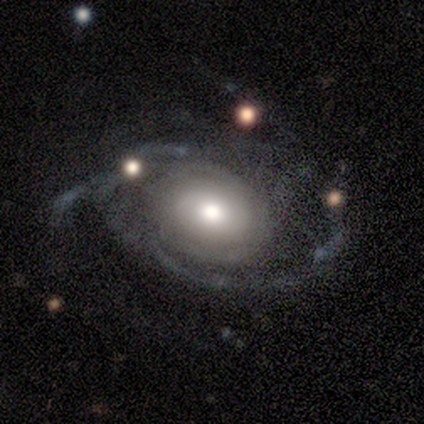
Smooth or featured? 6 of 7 (86%) said featured or disk. Edge-on disk? 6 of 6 (100%) said no. Bar? 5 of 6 (83%) said no. Spiral arms? 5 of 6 (83%) said yes. Spiral winding? 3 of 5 (60%) said tight. Spiral arm count? 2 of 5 (40%) said can't tell. Bulge size? 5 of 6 (83%) said moderate. Merging? 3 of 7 (43%) said minor disturbance.